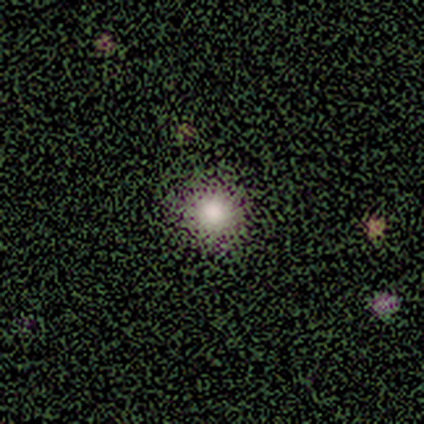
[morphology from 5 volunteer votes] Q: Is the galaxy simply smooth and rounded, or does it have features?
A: smooth — 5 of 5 (100%).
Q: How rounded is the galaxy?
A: round — 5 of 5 (100%).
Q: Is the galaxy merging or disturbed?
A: none — 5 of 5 (100%).